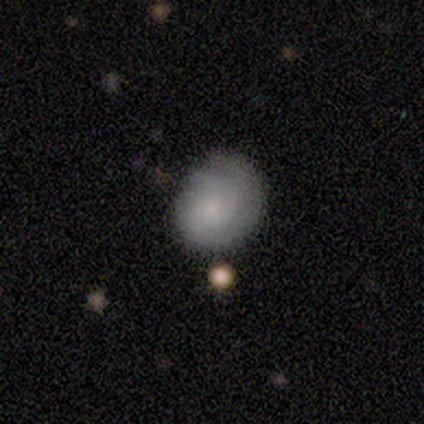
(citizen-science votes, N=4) A smooth galaxy with no disk features (50%, tied with featured or disk) that is round (50%, tied with in between).

Vote fractions:
- Smooth or featured? smooth: 50% (tied) / featured or disk: 50% (tied) / star or artifact: 0%
- How rounded? round: 50% (tied) / in between: 50% (tied) / cigar-shaped: 0%
- Merging? none: 50% (tied) / minor disturbance: 50% (tied) / major disturbance: 0% / merger: 0%